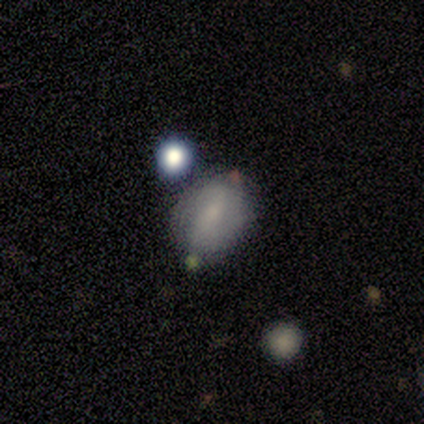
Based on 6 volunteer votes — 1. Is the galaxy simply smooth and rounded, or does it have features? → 50% smooth, 33% star or artifact, 17% featured or disk.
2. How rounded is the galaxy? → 67% round, 33% in between, 0% cigar-shaped.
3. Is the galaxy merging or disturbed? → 100% none, 0% minor disturbance, 0% major disturbance, 0% merger.